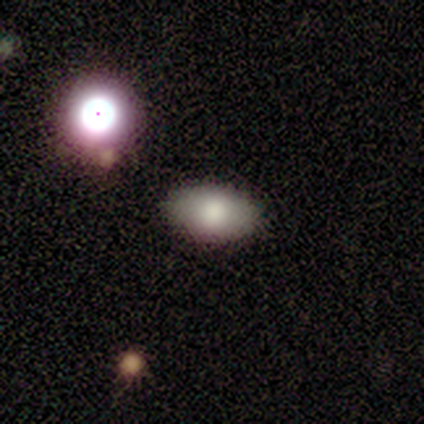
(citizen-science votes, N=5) Q: Smooth or featured?
A: smooth (100%)
Q: How rounded?
A: in between (80%); runner-up: round (20%)
Q: Merging?
A: none (80%); runner-up: minor disturbance (20%)